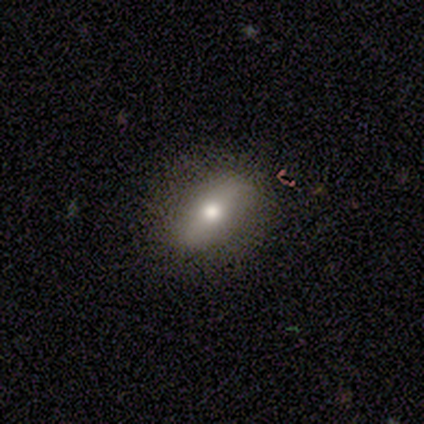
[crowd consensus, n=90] smooth-or-featured: smooth: 69% | featured or disk: 23% | star or artifact: 8%
  how-rounded: in between: 76% | cigar-shaped: 15% | round: 10%
  merging: none: 83% | minor disturbance: 11% | major disturbance: 5% | merger: 1%